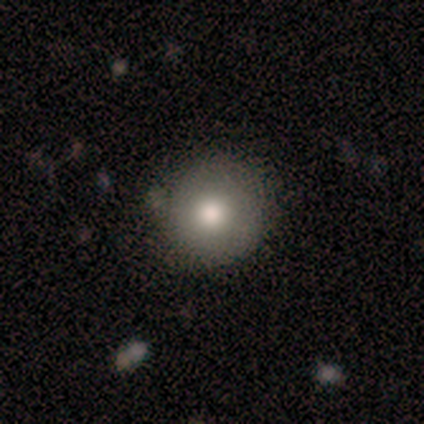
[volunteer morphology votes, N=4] smooth 50% (tied), featured or disk 50% (tied), star or artifact 0%. Down the decision tree: how rounded — round (100%); merging — none (75%).